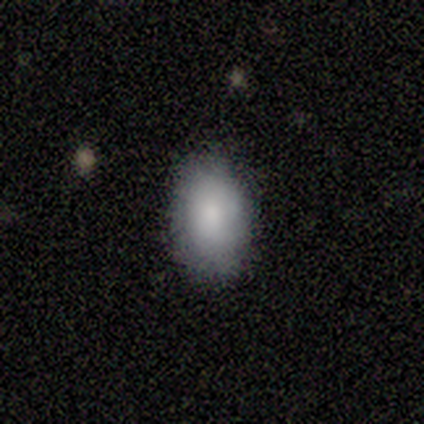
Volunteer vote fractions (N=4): Morphology: type=smooth (50%, tied with star or artifact); roundness=in between (100%); merging=none (100%).